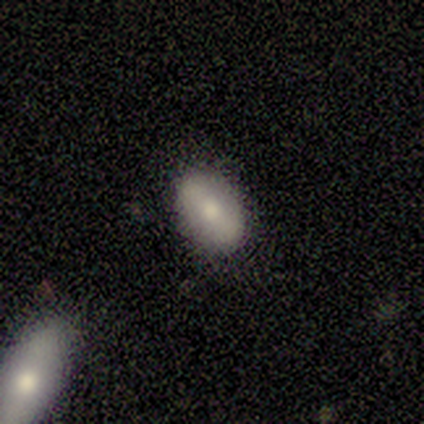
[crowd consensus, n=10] Smooth or featured?
  - smooth: 60% *
  - featured or disk: 30%
  - star or artifact: 10%
How rounded?
  - in between: 100% *
  - round: 0%
  - cigar-shaped: 0%
Merging?
  - none: 89% *
  - minor disturbance: 11%
  - major disturbance: 0%
  - merger: 0%